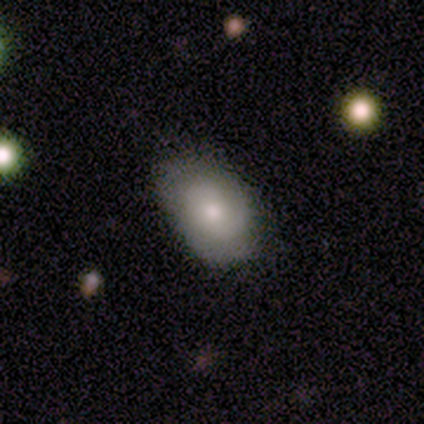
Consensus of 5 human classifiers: smooth_or_featured: smooth (p=0.60) [alt: featured or disk p=0.40]
how_rounded: in between (p=1.00)
merging: none (p=0.60) [alt: minor disturbance p=0.20]